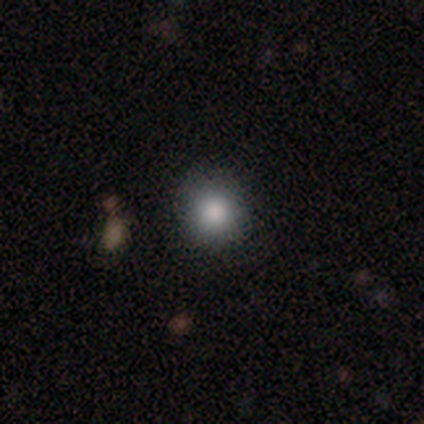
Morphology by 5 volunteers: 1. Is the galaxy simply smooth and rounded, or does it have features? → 80% smooth, 20% star or artifact, 0% featured or disk.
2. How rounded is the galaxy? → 100% round, 0% in between, 0% cigar-shaped.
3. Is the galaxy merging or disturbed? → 100% none, 0% minor disturbance, 0% major disturbance, 0% merger.